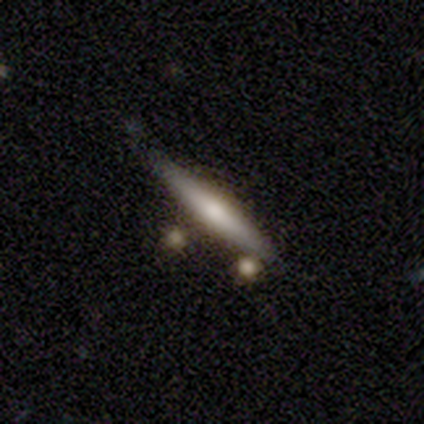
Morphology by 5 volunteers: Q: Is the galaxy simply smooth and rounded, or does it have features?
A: smooth — 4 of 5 (80%).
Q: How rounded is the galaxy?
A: cigar-shaped — 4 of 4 (100%).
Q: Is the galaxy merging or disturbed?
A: none — 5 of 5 (100%).